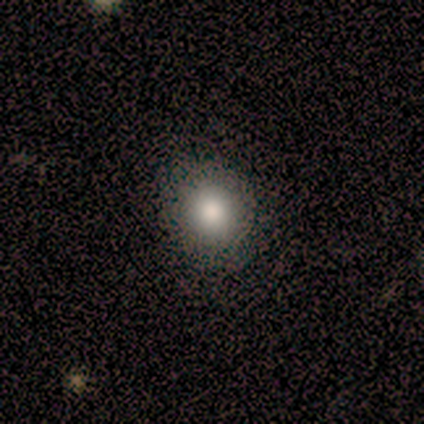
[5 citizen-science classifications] Smooth or featured? smooth (80%)
How rounded? round (50%)
Merging? none (75%)